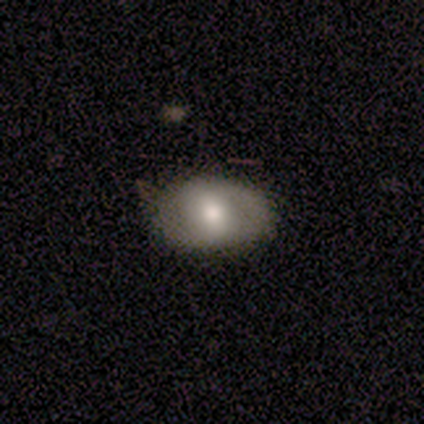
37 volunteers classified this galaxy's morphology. Smooth or featured: smooth — 65% (featured or disk — 32%)
How rounded: in between — 71% (round — 29%)
Merging: none — 39% (minor disturbance — 6%)